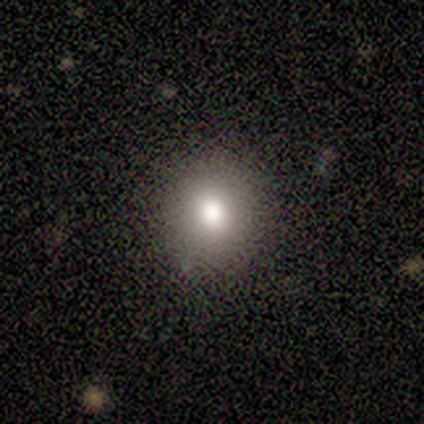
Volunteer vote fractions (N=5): Q: Smooth or featured?
A: smooth (80%); runner-up: featured or disk (20%)
Q: How rounded?
A: round (100%)
Q: Merging?
A: none (100%)